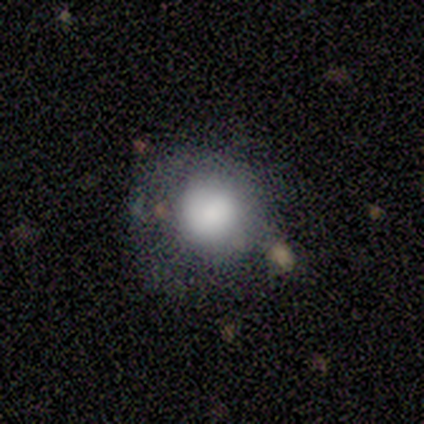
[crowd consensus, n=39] Q: Smooth or featured?
A: smooth (69%); runner-up: star or artifact (18%)
Q: How rounded?
A: round (89%); runner-up: in between (11%)
Q: Merging?
A: none (44%); runner-up: minor disturbance (28%)